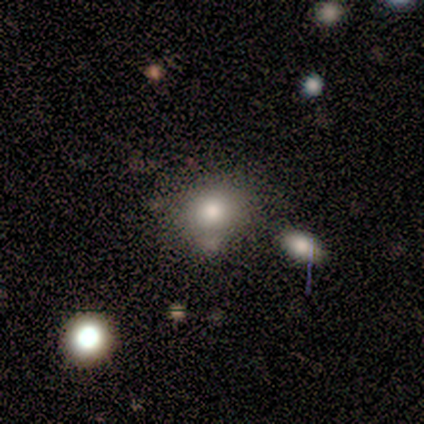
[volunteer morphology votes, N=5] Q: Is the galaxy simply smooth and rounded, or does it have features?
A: smooth — 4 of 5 (80%).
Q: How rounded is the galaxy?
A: round — 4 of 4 (100%).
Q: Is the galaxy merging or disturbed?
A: minor disturbance — 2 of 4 (50%).